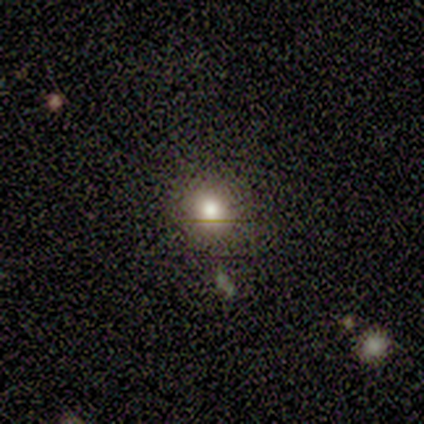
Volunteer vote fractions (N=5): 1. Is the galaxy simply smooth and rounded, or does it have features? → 80% smooth, 20% star or artifact, 0% featured or disk.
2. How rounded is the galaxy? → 100% round, 0% in between, 0% cigar-shaped.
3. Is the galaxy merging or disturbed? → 100% none, 0% minor disturbance, 0% major disturbance, 0% merger.